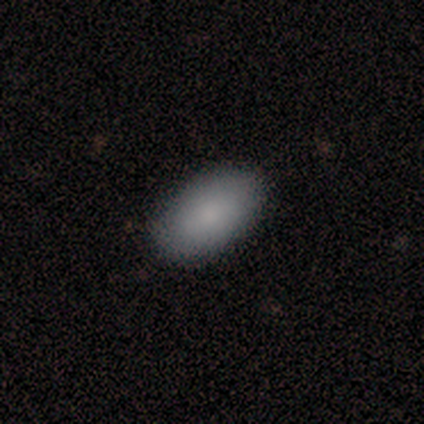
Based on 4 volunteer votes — Smooth or featured?
  - smooth: 75% *
  - star or artifact: 25%
  - featured or disk: 0%
How rounded?
  - in between: 67% *
  - round: 33%
  - cigar-shaped: 0%
Merging?
  - none: 67% *
  - minor disturbance: 33%
  - major disturbance: 0%
  - merger: 0%